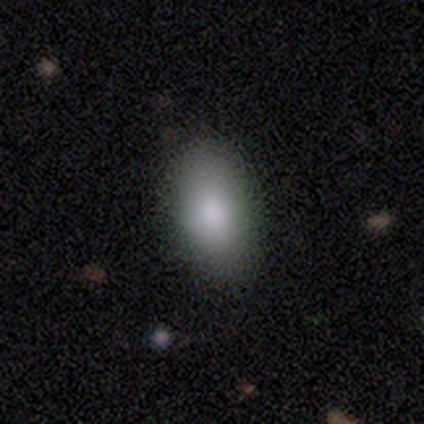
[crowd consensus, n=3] smooth_or_featured: smooth (p=1.00)
how_rounded: in between (p=1.00)
merging: none (p=1.00)